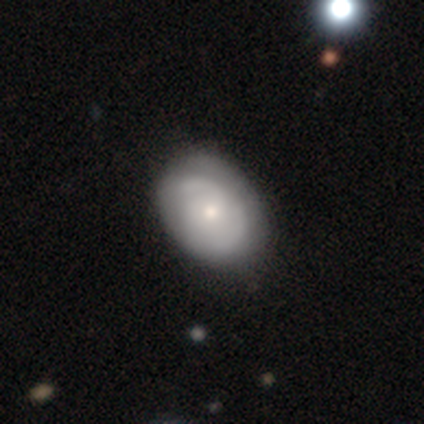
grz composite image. It shows a featured or disk galaxy (67%) with no bar (88%), 2 (58%) tight (47%) spiral arms (73%) and a moderate central bulge (50%). Merging: none (47%).